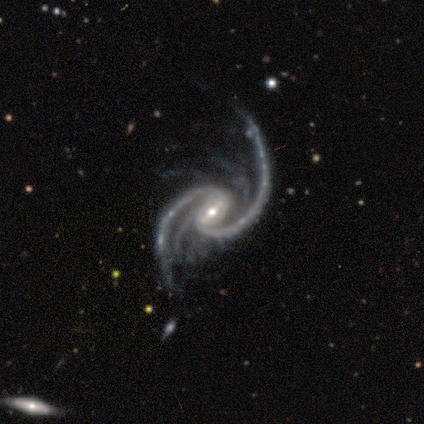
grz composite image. It shows a featured or disk galaxy (100%) with a weak bar (51%), 2 (62%) loose (51%) spiral arms (100%) and a small central bulge (51%). Merging: none (53%).